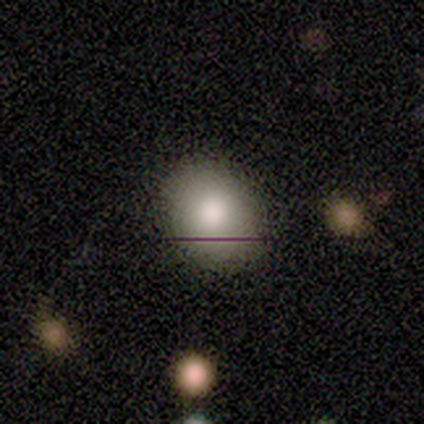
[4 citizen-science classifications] A smooth galaxy with no disk features (100%) that is in between round and cigar-shaped (75%). Merging: none (75%).